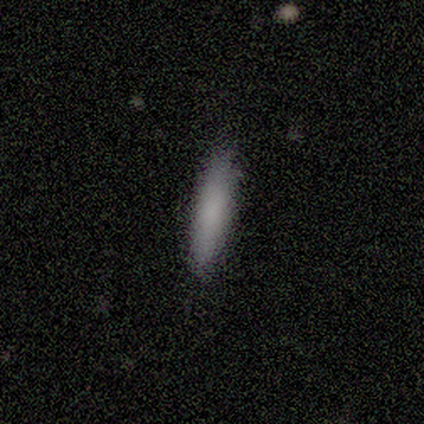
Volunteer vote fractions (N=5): smooth_or_featured: smooth (p=1.00)
how_rounded: cigar-shaped (p=0.80) [alt: in between p=0.20]
merging: none (p=1.00)